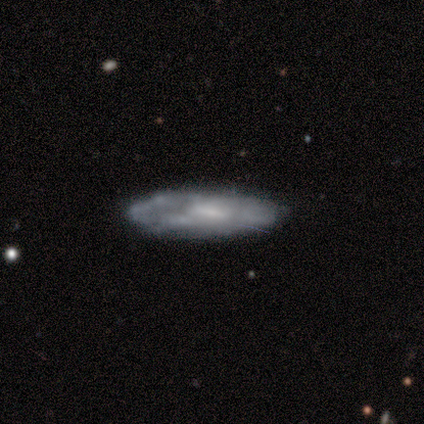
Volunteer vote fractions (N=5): smooth-or-featured: featured or disk: 80% | smooth: 20% | star or artifact: 0%
  disk-edge-on: no: 75% | yes: 25%
    bar: weak: 67% | no: 33% | strong: 0%
    has-spiral-arms: yes: 67% | no: 33%
      spiral-winding: tight: 50% (tied) | loose: 50% (tied) | medium: 0%
      spiral-arm-count: 1: 100% | 2: 0% | 3: 0% | 4: 0% | more than 4: 0% | can't tell: 0%
    bulge-size: moderate: 33% (tied) | small: 33% (tied) | none: 33% (tied) | dominant: 0% | large: 0%
  merging: none: 60% | minor disturbance: 20% | major disturbance: 20% | merger: 0%